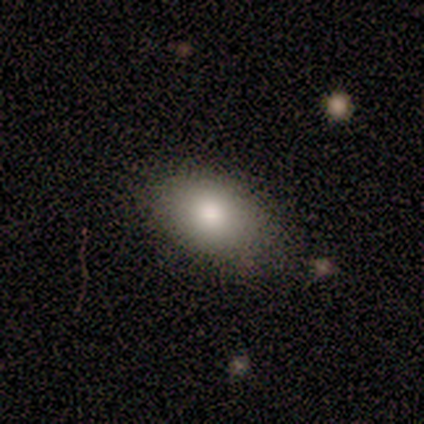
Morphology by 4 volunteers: A smooth galaxy with no disk features (100%) that is in between round and cigar-shaped (100%).

Vote fractions:
- Smooth or featured? smooth: 100% / featured or disk: 0% / star or artifact: 0%
- How rounded? in between: 100% / round: 0% / cigar-shaped: 0%
- Merging? none: 50% (tied) / minor disturbance: 50% (tied) / major disturbance: 0% / merger: 0%